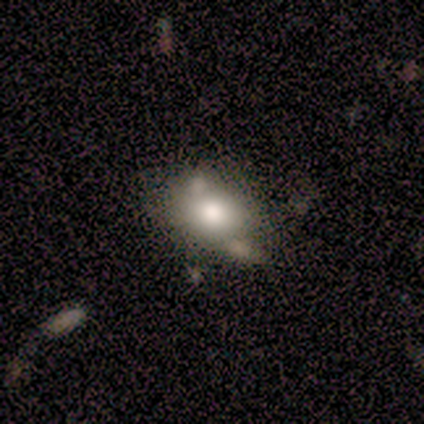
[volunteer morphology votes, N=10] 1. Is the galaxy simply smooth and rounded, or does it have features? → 70% smooth, 30% featured or disk, 0% star or artifact.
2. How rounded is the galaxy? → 57% round, 43% in between, 0% cigar-shaped.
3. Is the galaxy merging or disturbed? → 50% merger, 40% none, 10% minor disturbance, 0% major disturbance.